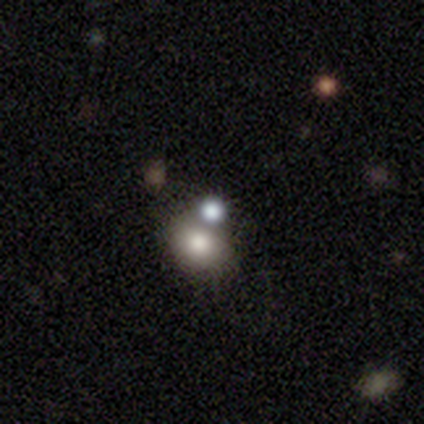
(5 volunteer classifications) This appears to be a star or artifact, not a galaxy (60%).